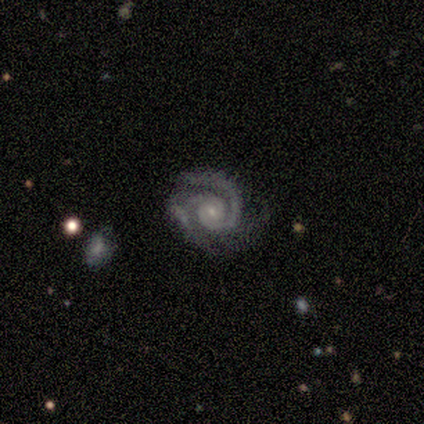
Smooth or featured? 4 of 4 (100%) said featured or disk. Edge-on disk? 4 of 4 (100%) said no. Bar? 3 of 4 (75%) said weak. Spiral arms? 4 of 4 (100%) said yes. Spiral winding? 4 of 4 (100%) said tight. Spiral arm count? 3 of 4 (75%) said 2. Bulge size? 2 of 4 (50%) said small. Merging? 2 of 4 (50%) said minor disturbance.